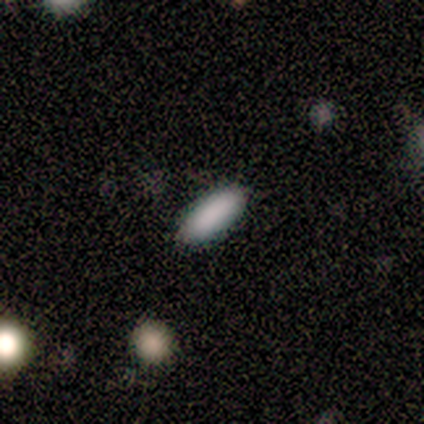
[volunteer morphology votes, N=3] A smooth galaxy with no disk features (100%) that is cigar-shaped (67%).

Vote fractions:
- Smooth or featured? smooth: 100% / featured or disk: 0% / star or artifact: 0%
- How rounded? cigar-shaped: 67% / in between: 33% / round: 0%
- Merging? none: 100% / minor disturbance: 0% / major disturbance: 0% / merger: 0%